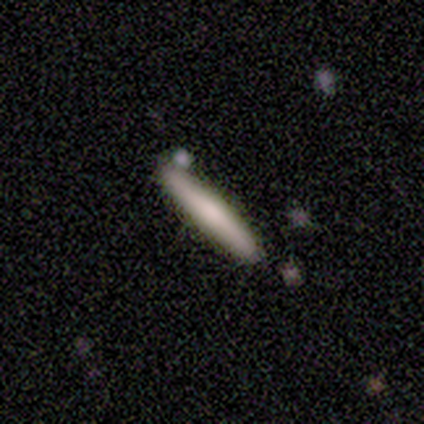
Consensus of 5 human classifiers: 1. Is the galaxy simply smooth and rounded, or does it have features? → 100% smooth, 0% featured or disk, 0% star or artifact.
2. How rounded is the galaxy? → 100% cigar-shaped, 0% round, 0% in between.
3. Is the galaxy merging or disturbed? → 100% none, 0% minor disturbance, 0% major disturbance, 0% merger.